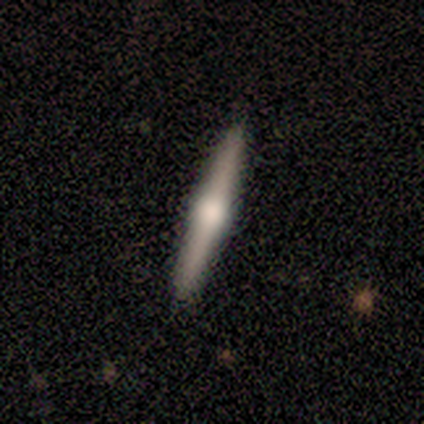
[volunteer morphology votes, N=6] A featured or disk galaxy (67%) viewed edge-on (100%) with a rounded central bulge (100%). Merging: none (100%).